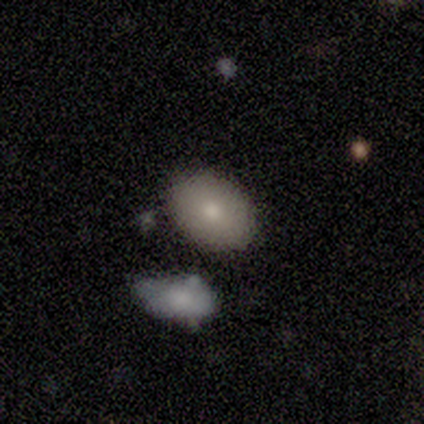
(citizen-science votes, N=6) This appears to be a smooth galaxy with no disk features (83%) that is in between round and cigar-shaped (80%). Merging: none (67%).